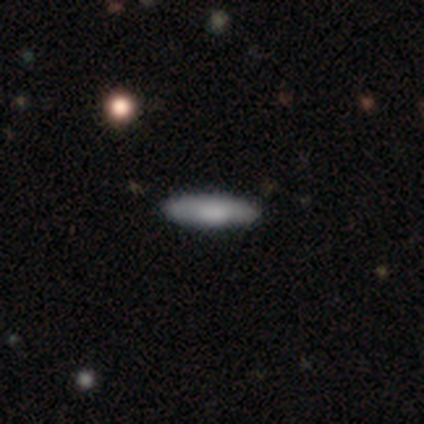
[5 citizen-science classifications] Smooth or featured?
  - smooth: 100% *
  - featured or disk: 0%
  - star or artifact: 0%
How rounded?
  - in between: 60% *
  - cigar-shaped: 40%
  - round: 0%
Merging?
  - none: 100% *
  - minor disturbance: 0%
  - major disturbance: 0%
  - merger: 0%